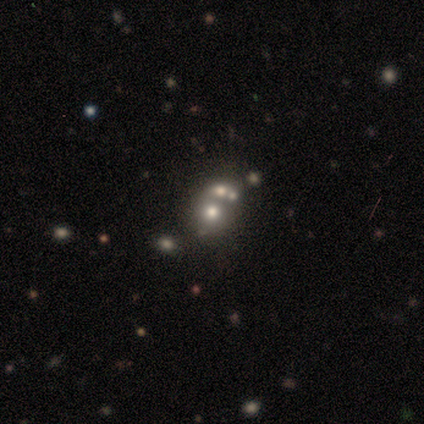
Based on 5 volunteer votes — Q: Smooth or featured?
A: featured or disk (60%); runner-up: smooth (20%)
Q: Edge-on disk?
A: no (100%)
Q: Bar?
A: no (100%)
Q: Spiral arms?
A: no (100%)
Q: Bulge size?
A: dominant (33%); tied with: small (33%); none (33%)
Q: Merging?
A: merger (75%); runner-up: none (25%)